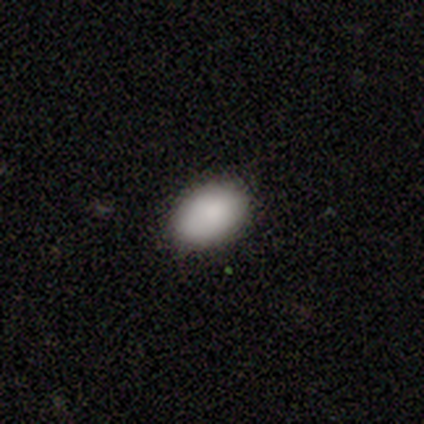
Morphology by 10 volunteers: A smooth galaxy with no disk features (90%) that is in between round and cigar-shaped (100%). Merging: none (89%).